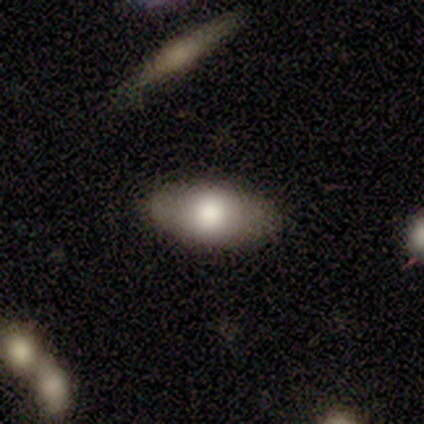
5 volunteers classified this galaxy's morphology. Overall: smooth (80%). How rounded: in between (100%). Merging: none (75%).